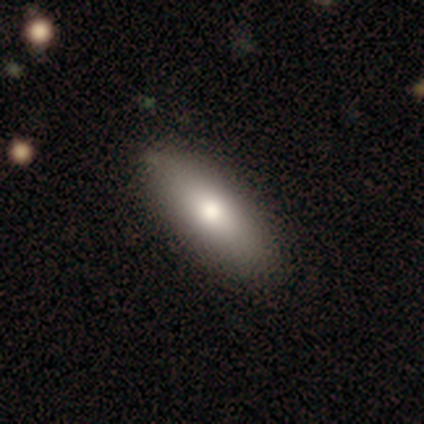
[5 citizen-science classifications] This appears to be a smooth galaxy with no disk features (80%) that is in between round and cigar-shaped (100%). Merging: none (100%).